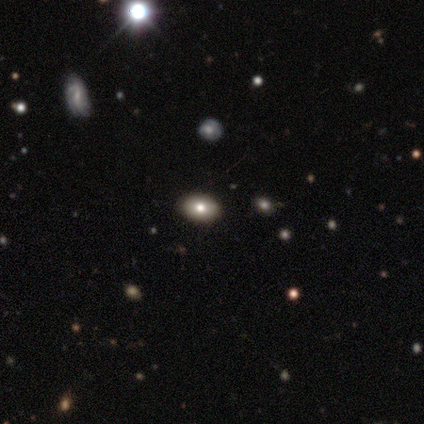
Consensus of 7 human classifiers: A smooth galaxy with no disk features (71%) that is in between round and cigar-shaped (60%).

Vote fractions:
- Smooth or featured? smooth: 71% / featured or disk: 14% / star or artifact: 14%
- How rounded? in between: 60% / round: 40% / cigar-shaped: 0%
- Merging? none: 100% / minor disturbance: 0% / major disturbance: 0% / merger: 0%